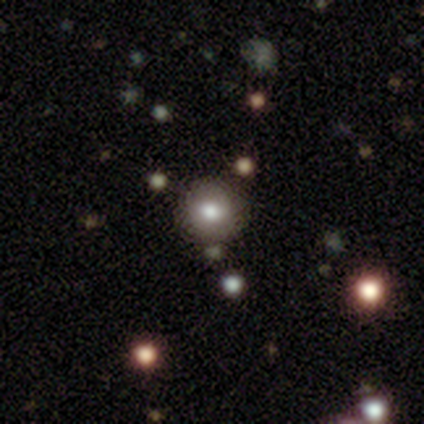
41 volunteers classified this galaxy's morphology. A smooth galaxy with no disk features (73%) that is round (90%).

Vote fractions:
- Smooth or featured? smooth: 73% / star or artifact: 15% / featured or disk: 12%
- How rounded? round: 90% / in between: 10% / cigar-shaped: 0%
- Merging? none: 83% / minor disturbance: 9% / merger: 9% / major disturbance: 0%